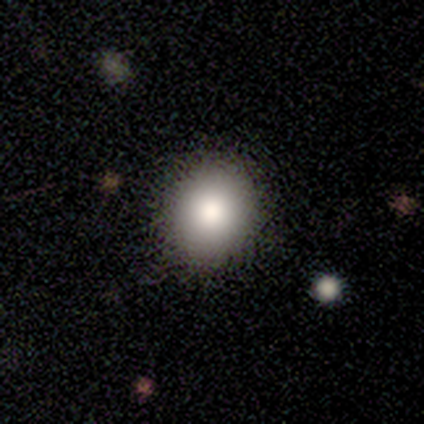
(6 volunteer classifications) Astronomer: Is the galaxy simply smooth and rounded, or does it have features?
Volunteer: smooth — 67%.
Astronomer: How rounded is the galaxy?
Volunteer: round — 75%.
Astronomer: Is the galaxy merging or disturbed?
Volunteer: none — 100%.